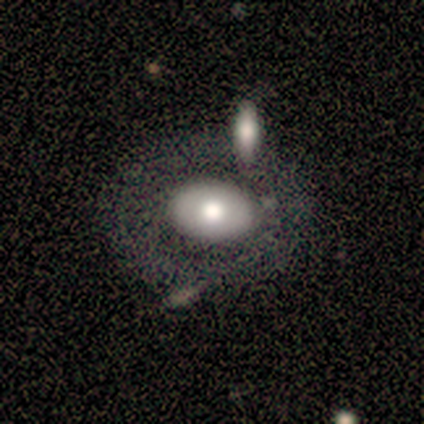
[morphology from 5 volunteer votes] A smooth galaxy with no disk features (60%) that is round (67%).

Vote fractions:
- Smooth or featured? smooth: 60% / featured or disk: 40% / star or artifact: 0%
- How rounded? round: 67% / in between: 33% / cigar-shaped: 0%
- Merging? none: 60% / minor disturbance: 20% / merger: 20% / major disturbance: 0%